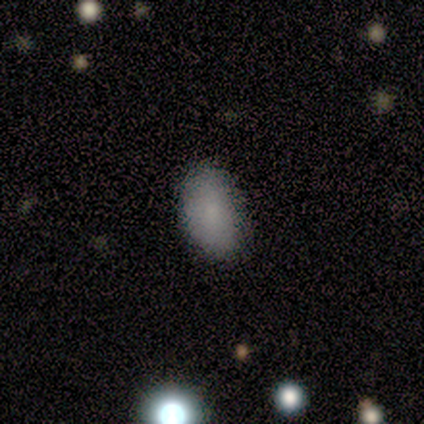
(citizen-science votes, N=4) Q: Smooth or featured?
A: smooth (100%)
Q: How rounded?
A: in between (100%)
Q: Merging?
A: none (100%)